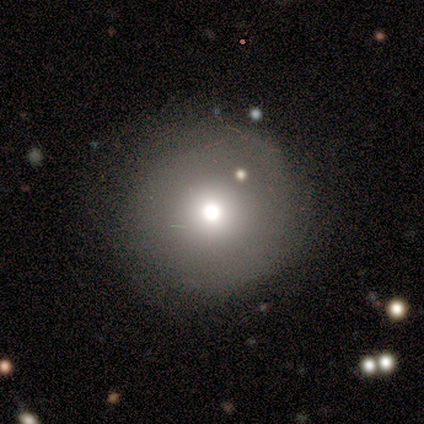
A smooth galaxy with no disk features (60%) that is round (67%).

Vote fractions:
- Smooth or featured? smooth: 60% / featured or disk: 40% / star or artifact: 0%
- How rounded? round: 67% / in between: 33% / cigar-shaped: 0%
- Merging? none: 60% / minor disturbance: 20% / merger: 20% / major disturbance: 0%